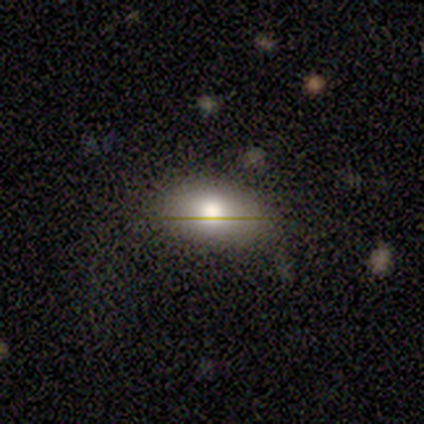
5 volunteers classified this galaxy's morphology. Smooth or featured?
  - smooth: 60% *
  - featured or disk: 20%
  - star or artifact: 20%
How rounded?
  - in between: 100% *
  - round: 0%
  - cigar-shaped: 0%
Merging?
  - none: 50% * (tied)
  - minor disturbance: 50% * (tied)
  - major disturbance: 0%
  - merger: 0%